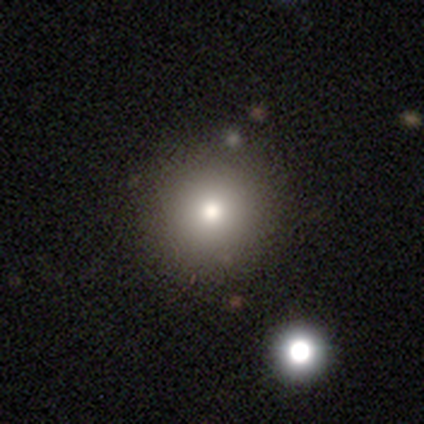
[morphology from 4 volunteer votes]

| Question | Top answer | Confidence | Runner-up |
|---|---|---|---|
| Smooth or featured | smooth | 50% | featured or disk (25%) |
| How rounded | round | 100% | — |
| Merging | none | 100% | — |